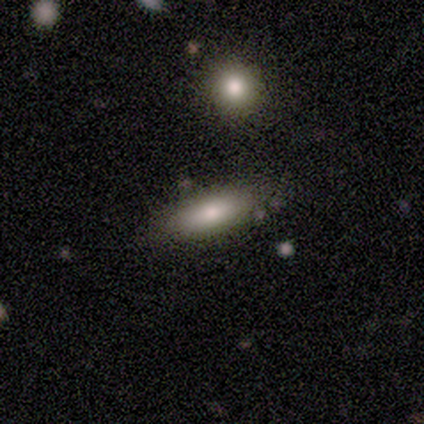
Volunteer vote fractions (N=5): Q: Smooth or featured?
A: smooth (80%); runner-up: featured or disk (20%)
Q: How rounded?
A: in between (50%); tied with: cigar-shaped (50%)
Q: Merging?
A: none (80%); runner-up: major disturbance (20%)